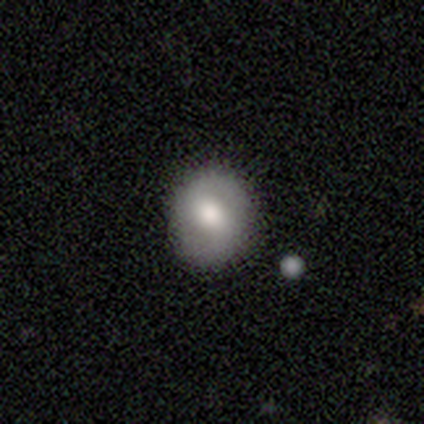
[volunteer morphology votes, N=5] This is clearly a featured or disk galaxy (80%). It is clearly not viewed edge-on (100%). Bar: likely no (75%). Spiral arm pattern: clearly no (100%). Central bulge: likely moderate (75%). Merging: clearly none (100%).